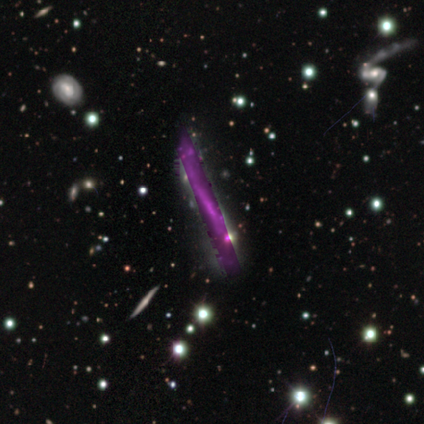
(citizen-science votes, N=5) Smooth or featured: star or artifact — 80% (featured or disk — 20%)